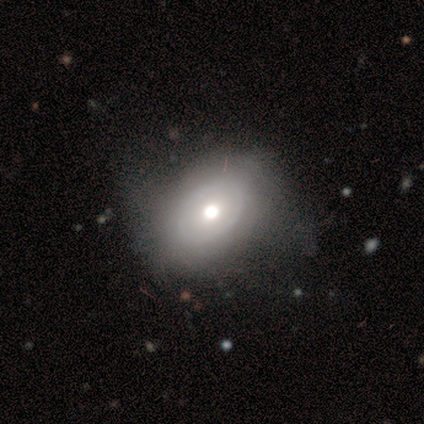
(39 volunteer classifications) Q: Smooth or featured?
A: featured or disk (56%); runner-up: smooth (41%)
Q: Edge-on disk?
A: no (95%); runner-up: yes (5%)
Q: Bar?
A: no (86%); runner-up: weak (14%)
Q: Spiral arms?
A: no (76%); runner-up: yes (24%)
Q: Bulge size?
A: moderate (76%); runner-up: large (10%)
Q: Merging?
A: none (34%); runner-up: minor disturbance (24%)